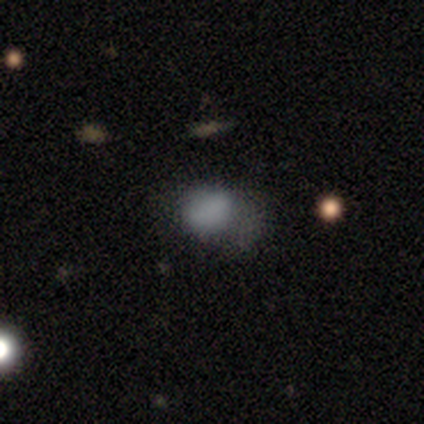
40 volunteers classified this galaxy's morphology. smooth_or_featured: smooth (p=0.78) [alt: star or artifact p=0.15]
how_rounded: in between (p=0.58) [alt: round p=0.39]
merging: minor disturbance (p=0.50) [alt: none p=0.35]